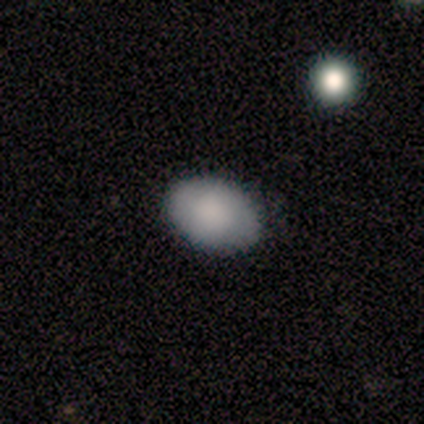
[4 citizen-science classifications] Smooth or featured? 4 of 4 (100%) said smooth. How rounded? 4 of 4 (100%) said in between. Merging? 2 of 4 (50%, tied with minor disturbance) said none.